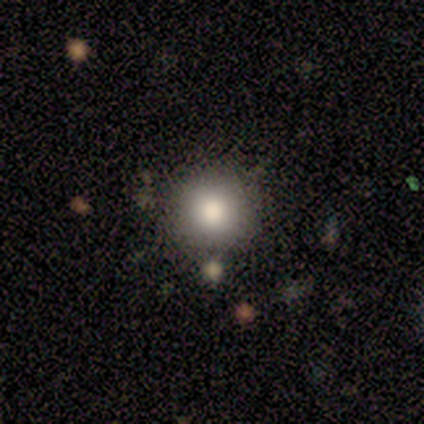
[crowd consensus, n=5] Smooth or featured: smooth — 100%
How rounded: round — 100%
Merging: none — 100%